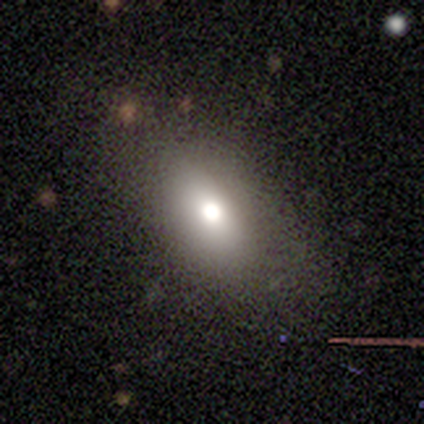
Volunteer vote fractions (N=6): Smooth or featured? 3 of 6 (50%, tied with star or artifact) said smooth. How rounded? 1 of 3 (33%, tied with in between and cigar-shaped) said round. Merging? 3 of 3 (100%) said none.